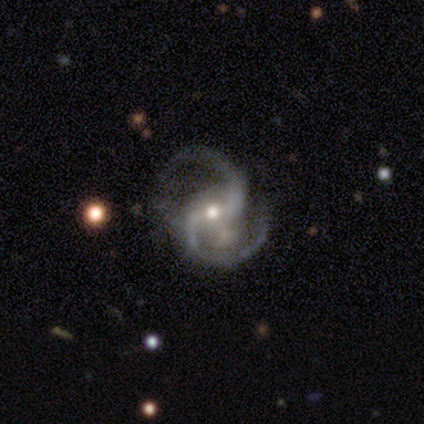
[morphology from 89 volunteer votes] Smooth or featured: featured or disk — 94% (star or artifact — 3%)
Edge-on disk: no — 98% (yes — 2%)
Bar: weak — 46% (strong — 32%)
Spiral arms: yes — 99% (no — 1%)
Spiral winding: medium — 69% (loose — 26%)
Spiral arm count: 2 — 96% (3 — 2%)
Bulge size: small — 50% (moderate — 49%)
Merging: none — 63% (minor disturbance — 21%)